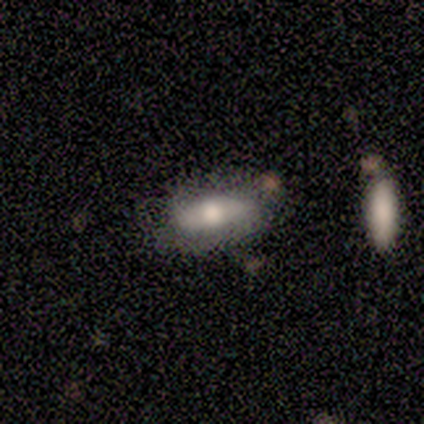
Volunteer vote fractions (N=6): Smooth or featured: smooth — 83% (featured or disk — 17%)
How rounded: in between — 100%
Merging: none — 83% (merger — 17%)